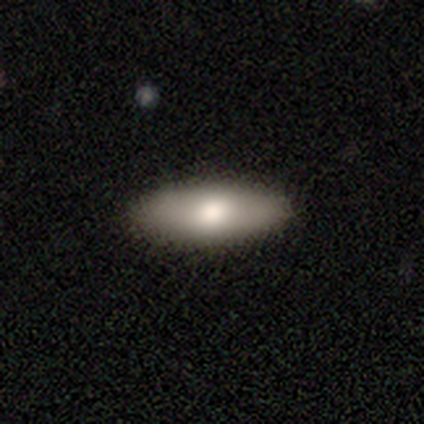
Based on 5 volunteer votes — Overall: smooth (100%). How rounded: in between (80%). Merging: none (100%).